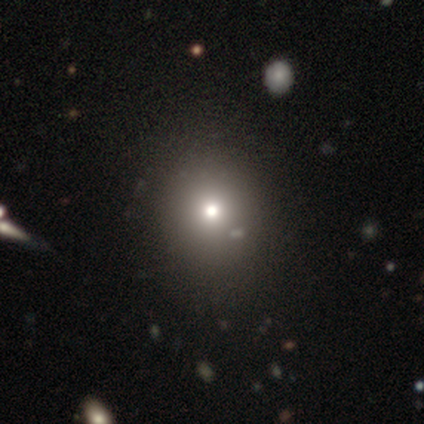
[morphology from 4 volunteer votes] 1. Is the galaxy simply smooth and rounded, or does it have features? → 75% smooth, 25% featured or disk, 0% star or artifact.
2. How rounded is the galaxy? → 100% round, 0% in between, 0% cigar-shaped.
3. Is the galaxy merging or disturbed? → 100% none, 0% minor disturbance, 0% major disturbance, 0% merger.